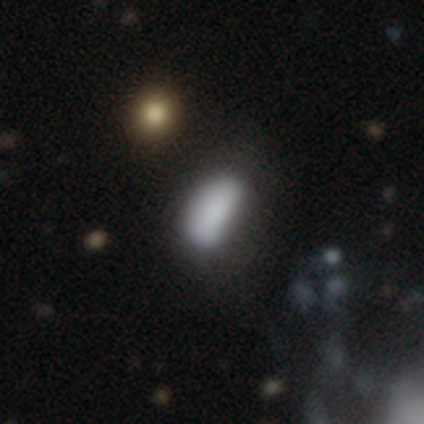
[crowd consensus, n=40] smooth_or_featured: smooth (p=0.82) [alt: featured or disk p=0.10]
how_rounded: in between (p=0.85) [alt: cigar-shaped p=0.15]
merging: none (p=0.46) [alt: minor disturbance p=0.41]